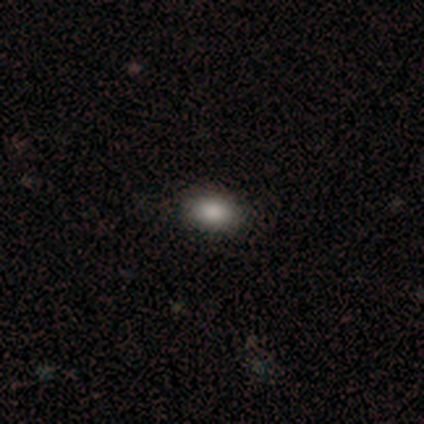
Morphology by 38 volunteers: type=smooth (82%); roundness=in between (81%); merging=none (97%).